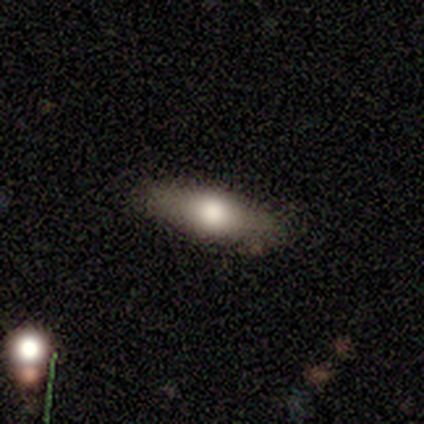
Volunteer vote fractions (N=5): smooth_or_featured: smooth (p=0.60) [alt: featured or disk p=0.40]
how_rounded: cigar-shaped (p=0.67) [alt: in between p=0.33]
merging: none (p=1.00)